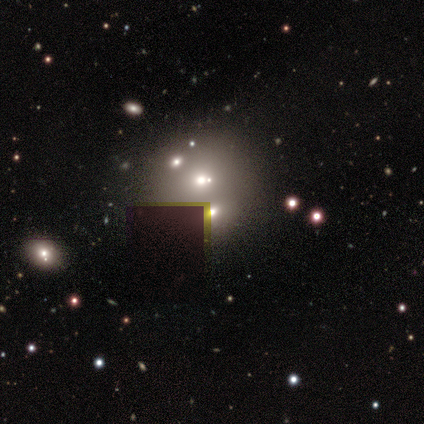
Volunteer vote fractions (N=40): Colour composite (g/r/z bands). It shows a smooth galaxy with no disk features (52%) that is round (81%). Merging: merger (50%).